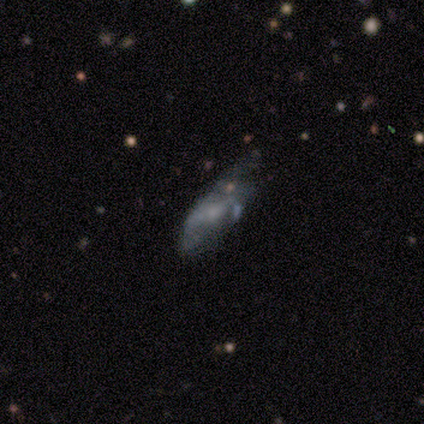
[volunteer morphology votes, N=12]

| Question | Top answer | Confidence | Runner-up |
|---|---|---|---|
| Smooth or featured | smooth | 58% | featured or disk (33%) |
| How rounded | in between | 86% | cigar-shaped (14%) |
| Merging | minor disturbance | 45% | none (27%) |